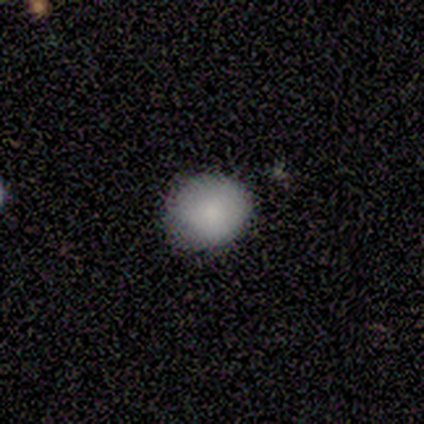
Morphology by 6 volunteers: A smooth galaxy with no disk features (100%) that is round (83%). Merging: none (83%).